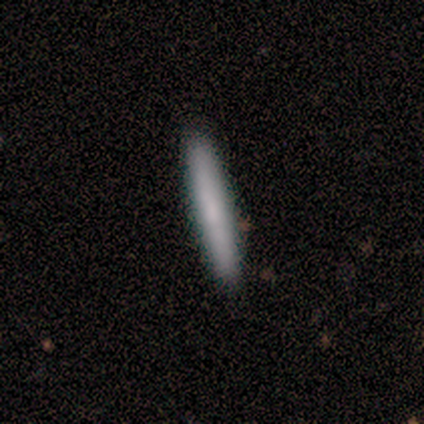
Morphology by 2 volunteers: Smooth or featured?
  - smooth: 100% *
  - featured or disk: 0%
  - star or artifact: 0%
How rounded?
  - cigar-shaped: 100% *
  - round: 0%
  - in between: 0%
Merging?
  - none: 50% * (tied)
  - minor disturbance: 50% * (tied)
  - major disturbance: 0%
  - merger: 0%